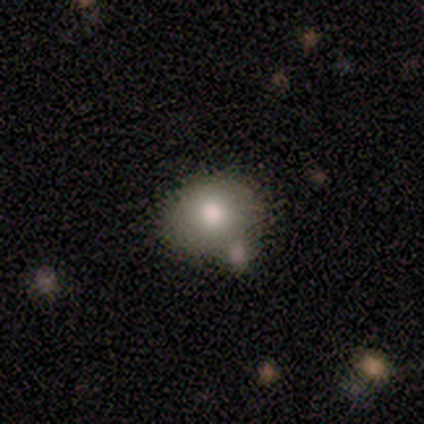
Smooth or featured: smooth — 80% (featured or disk — 20%)
How rounded: round — 50% (tied with in between — 50%)
Merging: none — 60% (minor disturbance — 20%)